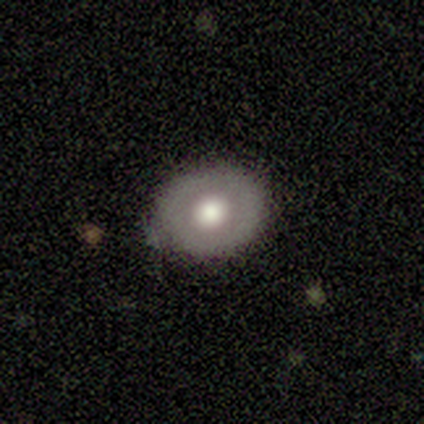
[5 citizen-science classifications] A featured or disk galaxy (60%) with no bar (100%), no spiral arms (100%) and a large central bulge (100%).

Vote fractions:
- Smooth or featured? featured or disk: 60% / smooth: 40% / star or artifact: 0%
- Edge-on disk? no: 100% / yes: 0%
- Bar? no: 100% / strong: 0% / weak: 0%
- Spiral arms? no: 100% / yes: 0%
- Bulge size? large: 100% / dominant: 0% / moderate: 0% / small: 0% / none: 0%
- Merging? none: 100% / minor disturbance: 0% / major disturbance: 0% / merger: 0%